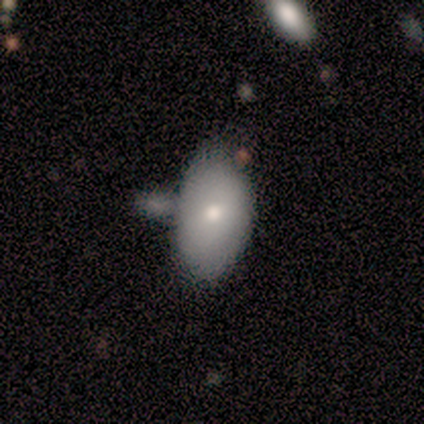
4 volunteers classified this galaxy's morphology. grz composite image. It shows a smooth galaxy with no disk features (100%) that is in between round and cigar-shaped (75%). Merging: major disturbance (50%).